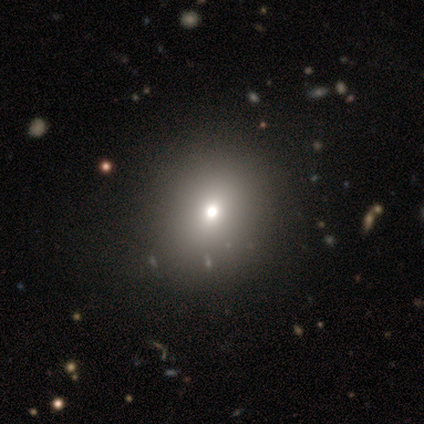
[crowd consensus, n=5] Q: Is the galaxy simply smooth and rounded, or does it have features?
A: smooth — 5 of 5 (100%).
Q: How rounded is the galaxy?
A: round — 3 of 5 (60%).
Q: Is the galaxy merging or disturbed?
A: none — 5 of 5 (100%).